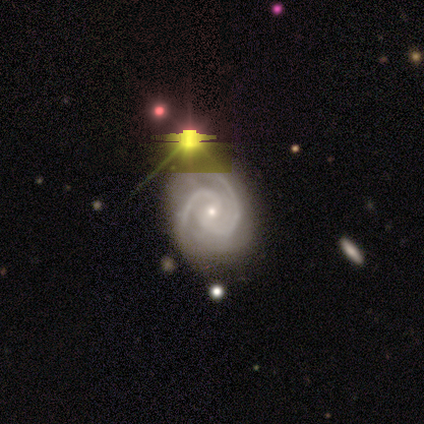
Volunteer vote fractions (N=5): This appears to be a featured or disk galaxy (60%) with a weak bar (67%), 2 (100%) tight (67%) spiral arms (100%) and a small central bulge (67%). Merging: none (100%).